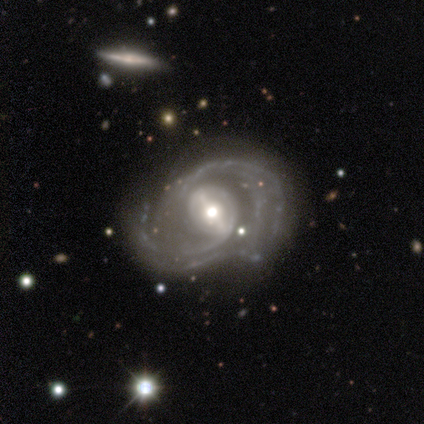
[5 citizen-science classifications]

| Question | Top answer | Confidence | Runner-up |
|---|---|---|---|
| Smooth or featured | featured or disk | 100% | — |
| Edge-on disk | no | 100% | — |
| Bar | strong | 80% | weak (20%) |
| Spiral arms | yes | 100% | — |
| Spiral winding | medium | 60% | tight (20%) |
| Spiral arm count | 2 | 60% | 3 (40%) |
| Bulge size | moderate | 60% | small (40%) |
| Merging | none | 60% | minor disturbance (40%) |